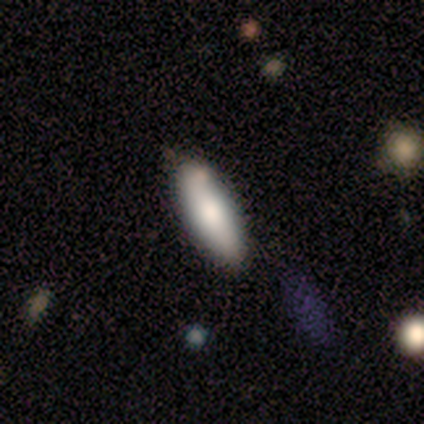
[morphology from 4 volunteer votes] Smooth or featured?
  - smooth: 75% *
  - featured or disk: 25%
  - star or artifact: 0%
How rounded?
  - cigar-shaped: 100% *
  - round: 0%
  - in between: 0%
Merging?
  - none: 75% *
  - minor disturbance: 25%
  - major disturbance: 0%
  - merger: 0%